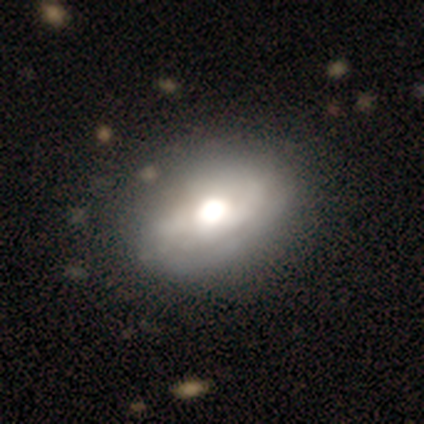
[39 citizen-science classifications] Smooth or featured? 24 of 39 (62%) said featured or disk. Edge-on disk? 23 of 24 (96%) said no. Bar? 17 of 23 (74%) said no. Spiral arms? 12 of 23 (52%) said yes. Spiral winding? 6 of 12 (50%) said tight. Spiral arm count? 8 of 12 (67%) said 2. Bulge size? 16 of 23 (70%) said large. Merging? 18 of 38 (47%) said none.